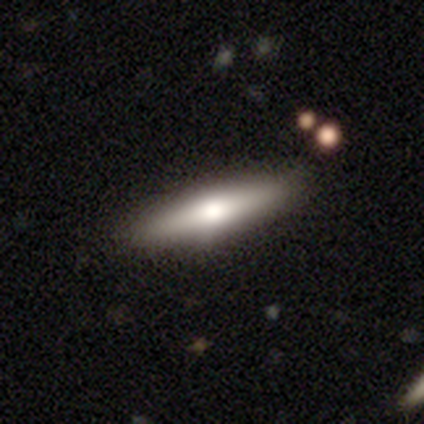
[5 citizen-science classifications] smooth-or-featured: featured or disk: 60% | smooth: 40% | star or artifact: 0%
  disk-edge-on: yes: 100% | no: 0%
    edge-on-bulge: rounded: 100% | boxy: 0% | none: 0%
  merging: none: 100% | minor disturbance: 0% | major disturbance: 0% | merger: 0%